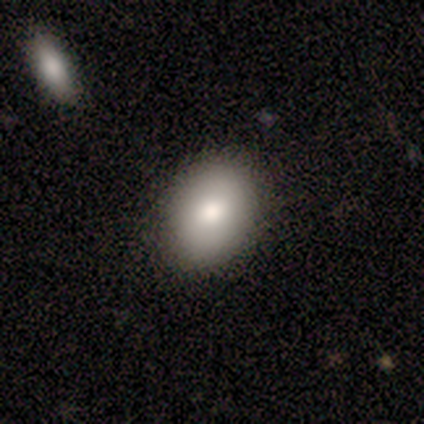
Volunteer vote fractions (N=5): Morphology: type=smooth (80%); roundness=in between (100%); merging=none (100%).